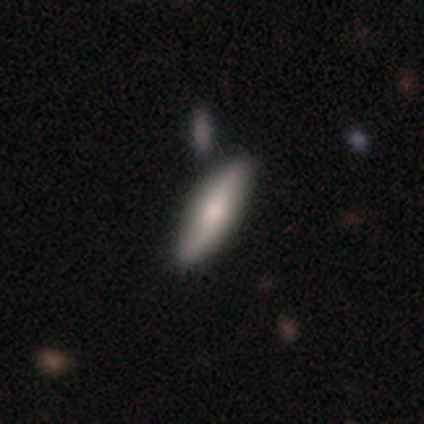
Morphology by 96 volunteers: Smooth or featured: smooth — 69% (featured or disk — 27%)
How rounded: cigar-shaped — 74% (in between — 26%)
Merging: none — 80% (minor disturbance — 13%)